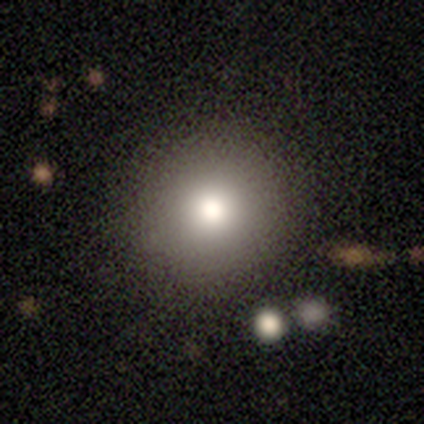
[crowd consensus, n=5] Overall: smooth (80%). How rounded: round (100%). Merging: none (75%).